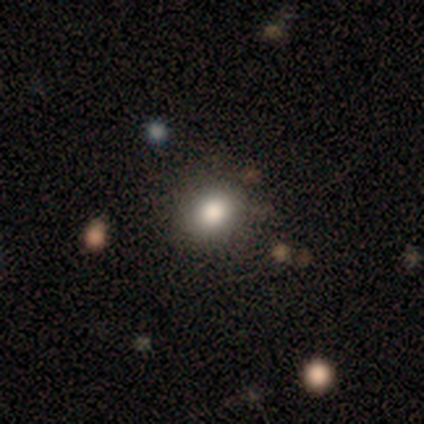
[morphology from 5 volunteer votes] Overall: smooth (60%; featured or disk 40%). How rounded: round (67%; in between 33%). Merging: none (80%).